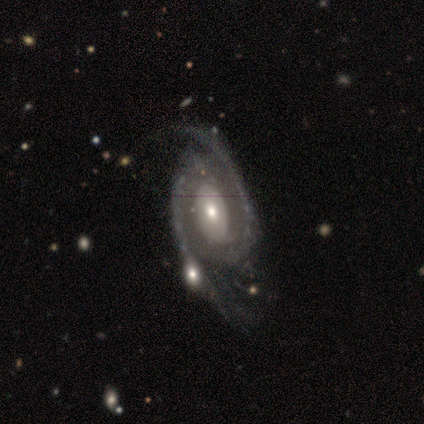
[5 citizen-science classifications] A featured or disk galaxy (100%) with no bar (60%), 2 (100%) medium (60%) spiral arms (100%) and a small central bulge (60%). Merging: none (80%).